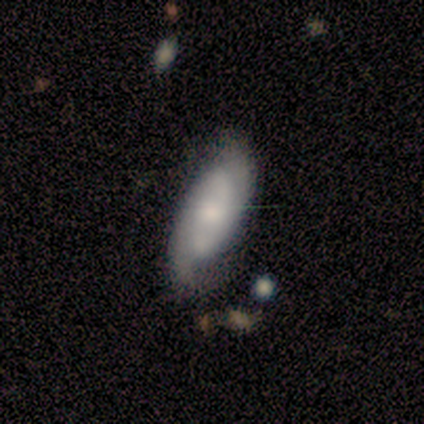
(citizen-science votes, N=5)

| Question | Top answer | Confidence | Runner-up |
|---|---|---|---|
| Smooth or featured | featured or disk | 80% | smooth (20%) |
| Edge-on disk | no | 75% | yes (25%) |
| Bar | no | 67% | weak (33%) |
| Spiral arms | yes | 100% | — |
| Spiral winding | tight | 67% | loose (33%) |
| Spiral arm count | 2 | 100% | — |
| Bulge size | moderate | 100% | — |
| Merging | none | 60% | minor disturbance (40%) |